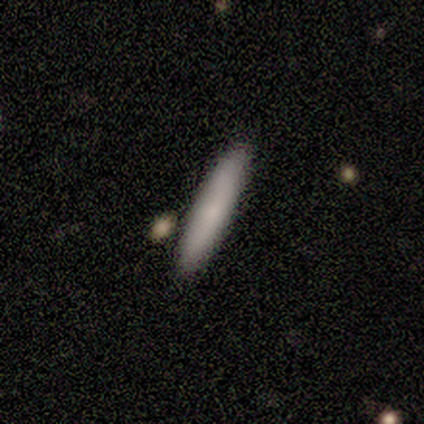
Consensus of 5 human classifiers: This appears to be a smooth galaxy with no disk features (80%) that is cigar-shaped (100%). Merging: none (80%).